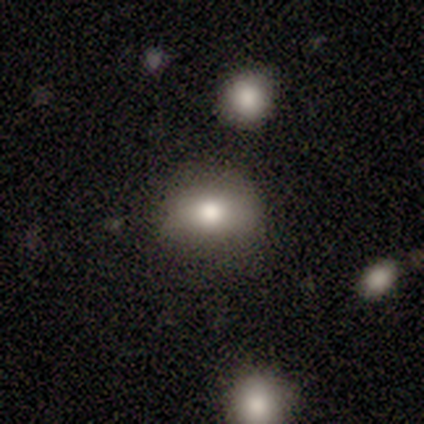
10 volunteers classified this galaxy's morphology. smooth_or_featured: smooth (p=0.70) [alt: featured or disk p=0.20]
how_rounded: in between (p=0.71) [alt: round p=0.29]
merging: none (p=0.78) [alt: minor disturbance p=0.11]